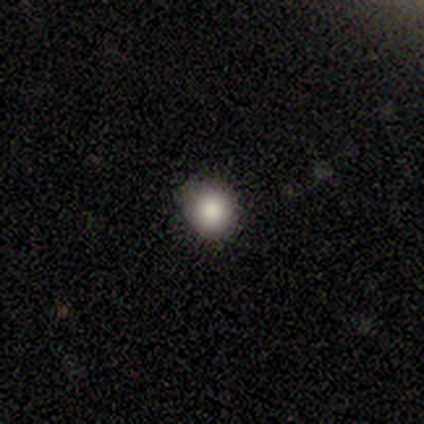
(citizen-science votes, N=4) Morphology: type=smooth (75%); roundness=round (100%); merging=none (100%).